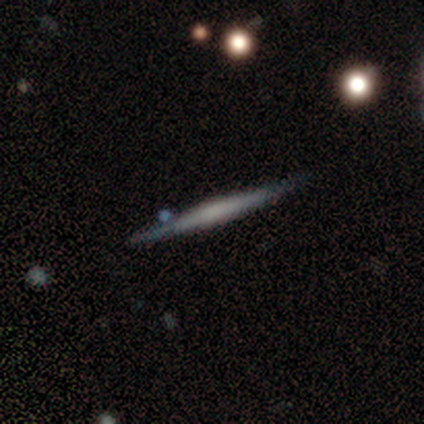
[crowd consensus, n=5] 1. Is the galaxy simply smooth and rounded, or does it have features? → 100% featured or disk, 0% smooth, 0% star or artifact.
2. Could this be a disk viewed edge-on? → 100% yes, 0% no.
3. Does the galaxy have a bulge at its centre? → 80% boxy, 20% none, 0% rounded.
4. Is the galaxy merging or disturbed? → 80% none, 20% merger, 0% minor disturbance, 0% major disturbance.